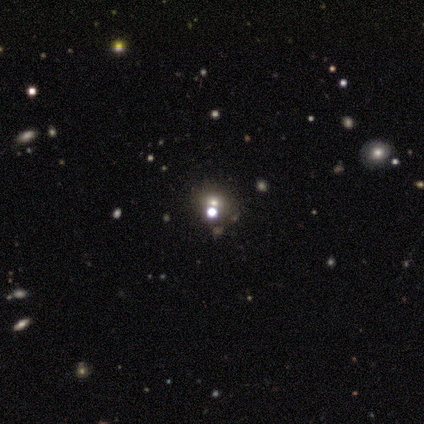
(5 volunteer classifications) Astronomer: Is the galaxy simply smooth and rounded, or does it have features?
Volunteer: smooth — 80%.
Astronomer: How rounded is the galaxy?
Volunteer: round — 50%, tied with in between at 50%.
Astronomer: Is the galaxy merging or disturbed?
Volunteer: none — 75%.